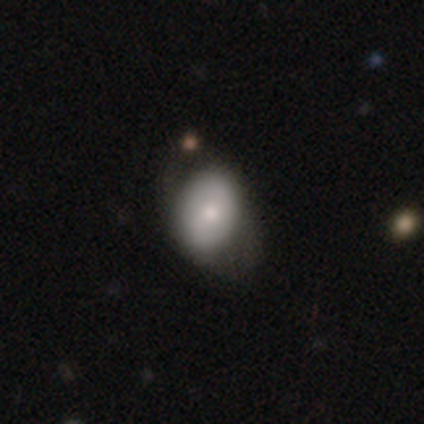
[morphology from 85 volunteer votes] A smooth galaxy with no disk features (62%) that is in between round and cigar-shaped (74%).

Vote fractions:
- Smooth or featured? smooth: 62% / featured or disk: 31% / star or artifact: 7%
- How rounded? in between: 74% / round: 26% / cigar-shaped: 0%
- Merging? none: 58% / major disturbance: 22% / minor disturbance: 19% / merger: 1%